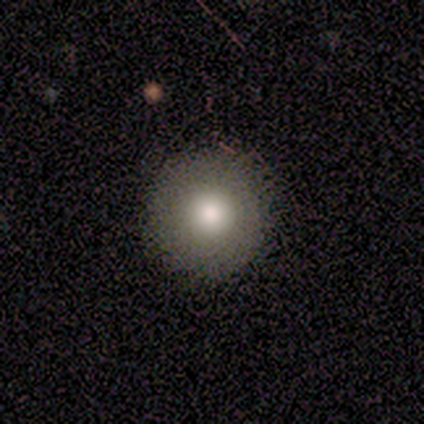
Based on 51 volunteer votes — This appears to be a smooth galaxy with no disk features (73%) that is round (100%). Merging: none (85%).